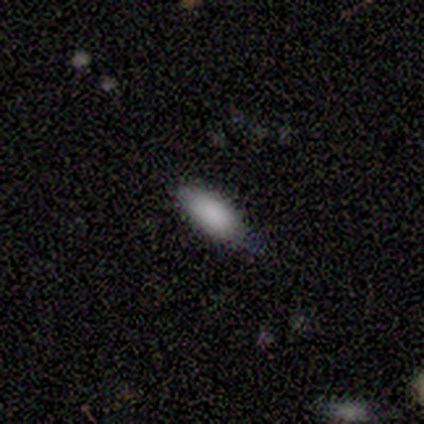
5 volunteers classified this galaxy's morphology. smooth-or-featured: smooth: 100% | featured or disk: 0% | star or artifact: 0%
  how-rounded: in between: 80% | cigar-shaped: 20% | round: 0%
  merging: none: 60% | minor disturbance: 40% | major disturbance: 0% | merger: 0%